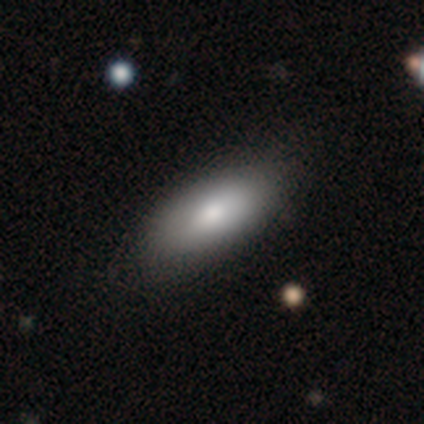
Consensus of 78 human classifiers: Smooth or featured? smooth (82%)
How rounded? in between (91%)
Merging? none (45%)